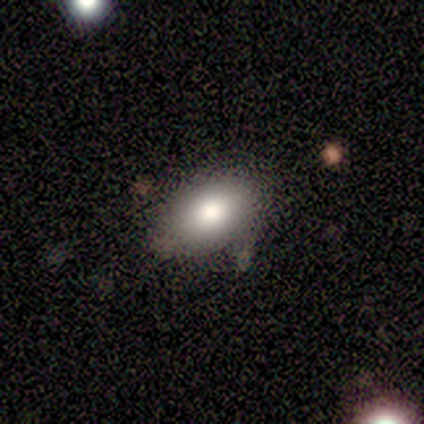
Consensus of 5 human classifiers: This is likely a smooth galaxy (60%). How rounded: clearly in between (100%). Merging: clearly none (100%).